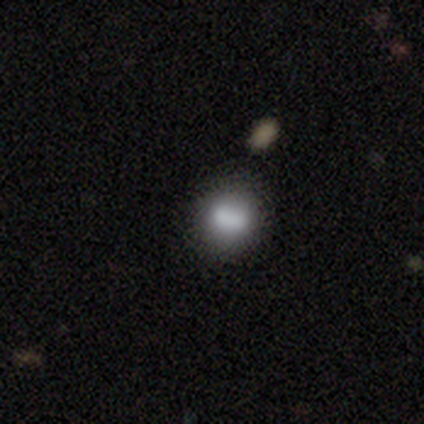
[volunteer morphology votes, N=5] smooth 60%, featured or disk 20%, star or artifact 20%. Down the decision tree: how rounded — in between (67%); merging — merger (50%).